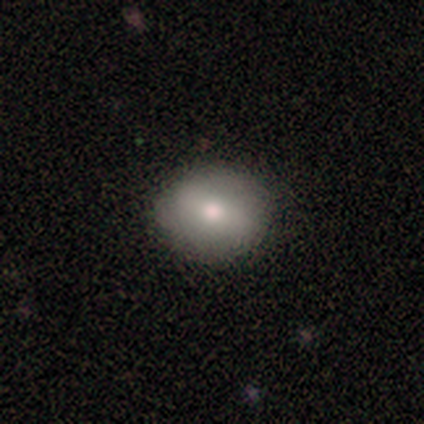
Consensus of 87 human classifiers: Smooth or featured?
  - smooth: 77% *
  - featured or disk: 13%
  - star or artifact: 10%
How rounded?
  - round: 63% *
  - in between: 36%
  - cigar-shaped: 1%
Merging?
  - none: 82% *
  - minor disturbance: 12%
  - major disturbance: 5%
  - merger: 1%